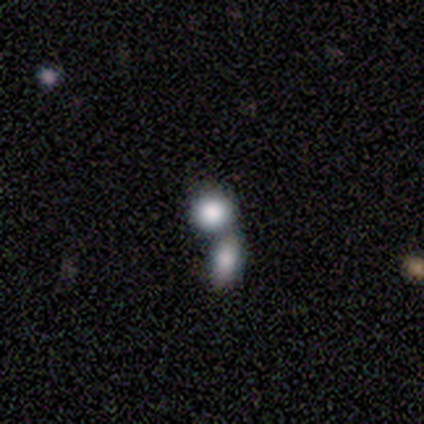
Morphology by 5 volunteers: Smooth or featured? 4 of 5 (80%) said smooth. How rounded? 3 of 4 (75%) said round. Merging? 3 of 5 (60%) said merger.